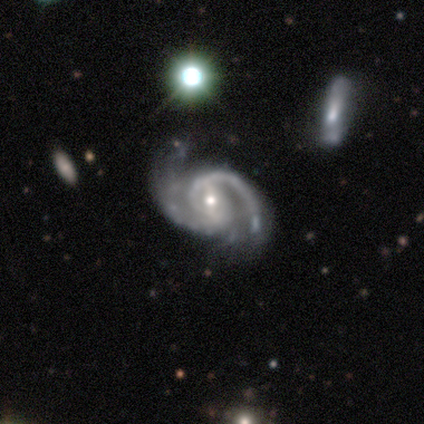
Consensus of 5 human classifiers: Smooth or featured? featured or disk (80%)
Edge-on disk? no (100%)
Bar? no (100%)
Spiral arms? yes (100%)
Spiral winding? medium (50%)
Spiral arm count? 2 (100%)
Bulge size? small (75%)
Merging? none (100%)